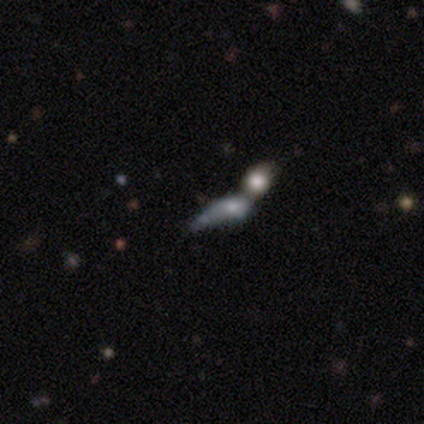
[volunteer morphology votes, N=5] Volunteers were most divided on "smooth or featured": smooth: 60%, featured or disk: 40%, star or artifact: 0%. More confident: merging — merger (100%); how rounded — in between (67%).